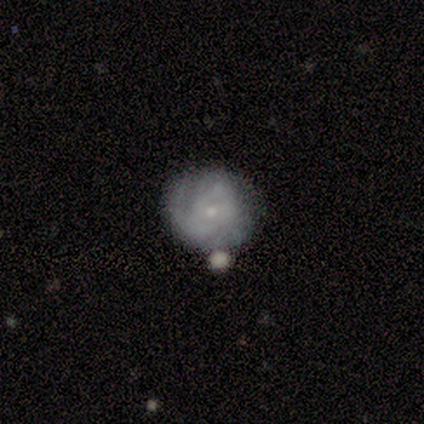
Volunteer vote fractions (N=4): Smooth or featured?
  - featured or disk: 75% *
  - smooth: 25%
  - star or artifact: 0%
Edge-on disk?
  - no: 100% *
  - yes: 0%
Bar?
  - no: 67% *
  - weak: 33%
  - strong: 0%
Spiral arms?
  - yes: 67% *
  - no: 33%
Spiral winding?
  - tight: 50% * (tied)
  - medium: 50% * (tied)
  - loose: 0%
Spiral arm count?
  - 2: 50% * (tied)
  - can't tell: 50% * (tied)
  - 1: 0%
  - 3: 0%
  - 4: 0%
  - more than 4: 0%
Bulge size?
  - small: 100% *
  - dominant: 0%
  - large: 0%
  - moderate: 0%
  - none: 0%
Merging?
  - none: 75% *
  - major disturbance: 25%
  - minor disturbance: 0%
  - merger: 0%